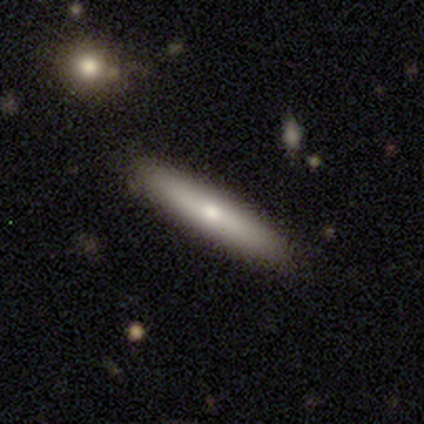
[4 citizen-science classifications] Morphology: type=smooth (50%, tied with featured or disk); roundness=cigar-shaped (100%); merging=none (75%).